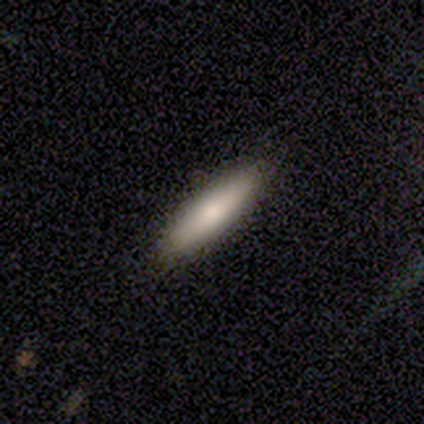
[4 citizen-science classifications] Q: Smooth or featured?
A: smooth (50%); tied with: featured or disk (50%)
Q: How rounded?
A: in between (100%)
Q: Merging?
A: none (100%)